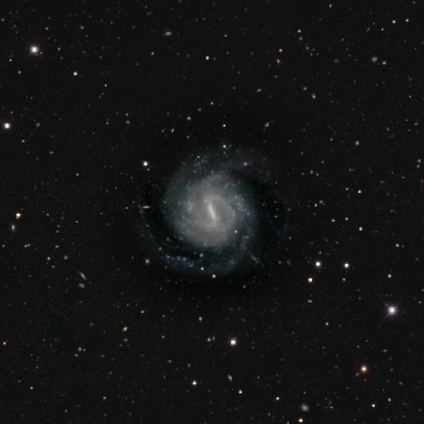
Q: Smooth or featured?
A: featured or disk (100%)
Q: Edge-on disk?
A: no (100%)
Q: Bar?
A: strong (100%)
Q: Spiral arms?
A: yes (100%)
Q: Spiral winding?
A: tight (75%); runner-up: medium (25%)
Q: Spiral arm count?
A: 2 (50%); runner-up: 3 (25%)
Q: Bulge size?
A: small (50%); tied with: none (50%)
Q: Merging?
A: none (50%); tied with: minor disturbance (50%)